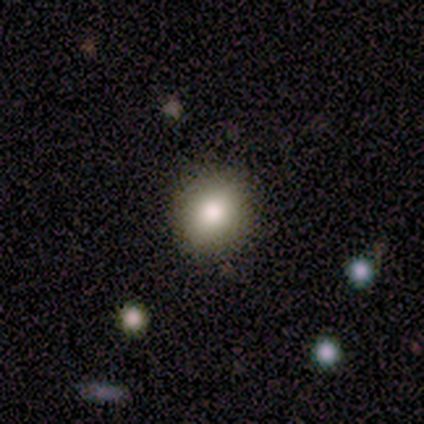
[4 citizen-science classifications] Smooth or featured? smooth (100%)
How rounded? round (75%)
Merging? none (100%)